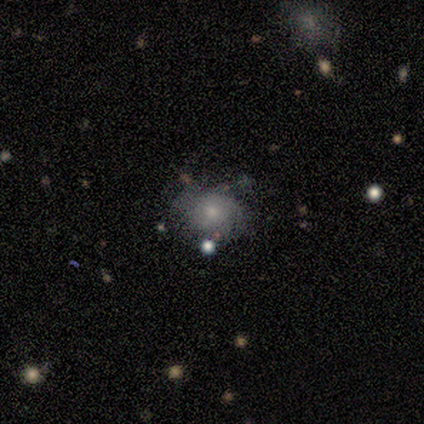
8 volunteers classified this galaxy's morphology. smooth_or_featured: smooth (p=0.50) [alt: featured or disk p=0.25]
how_rounded: in between (p=0.75) [alt: round p=0.25]
merging: minor disturbance (p=0.50) [alt: none p=0.33]